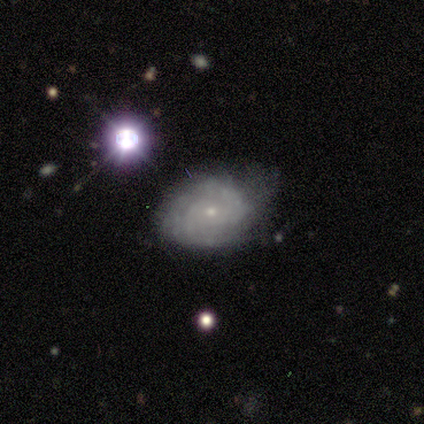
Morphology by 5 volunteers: type=featured or disk (80%); edge-on=no (100%); bar=no (100%); spiral arms=yes (100%); winding=tight (100%); arm count=can't tell (50%); bulge=small (75%); merging=none (80%).